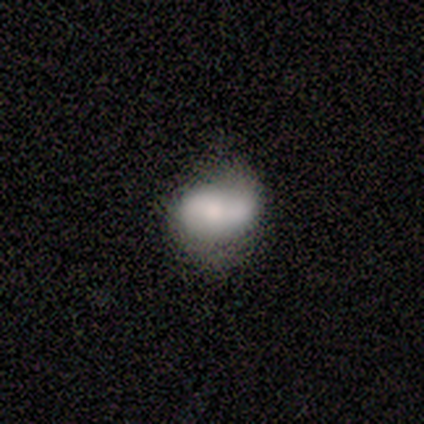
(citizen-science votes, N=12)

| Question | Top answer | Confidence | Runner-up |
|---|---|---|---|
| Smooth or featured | featured or disk | 58% | smooth (42%) |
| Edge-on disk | no | 86% | yes (14%) |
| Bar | no | 67% | strong (33%) |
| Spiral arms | yes | 83% | no (17%) |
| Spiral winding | medium | 60% | loose (40%) |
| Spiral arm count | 2 | 60% | can't tell (40%) |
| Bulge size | moderate | 50% | dominant (17%) |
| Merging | minor disturbance | 42% | none (33%) |